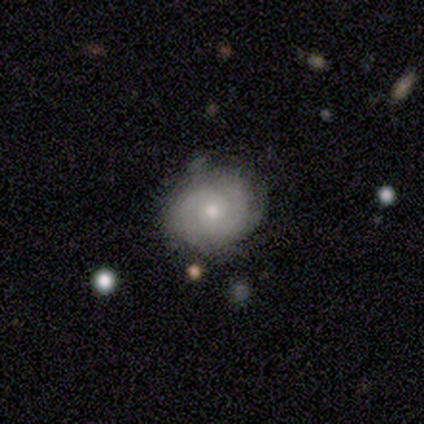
Overall: featured or disk (100%). Edge-on disk: no (100%). Bar: no (75%). Spiral arms: yes (75%). Spiral arm count: 2 (67%; 3 33%). Spiral winding: tight (33%, tied with medium and loose). Bulge size: moderate (75%). Merging: none (75%).